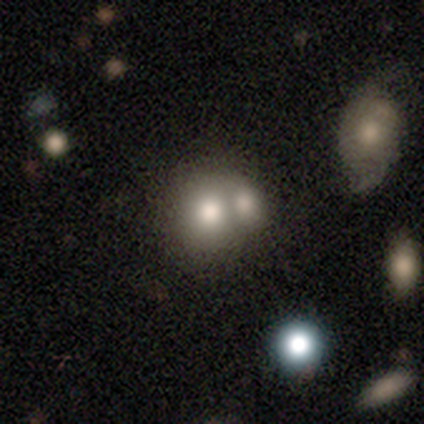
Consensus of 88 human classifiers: smooth_or_featured: smooth (p=0.66) [alt: featured or disk p=0.20]
how_rounded: round (p=0.76) [alt: in between p=0.24]
merging: merger (p=0.71) [alt: none p=0.22]